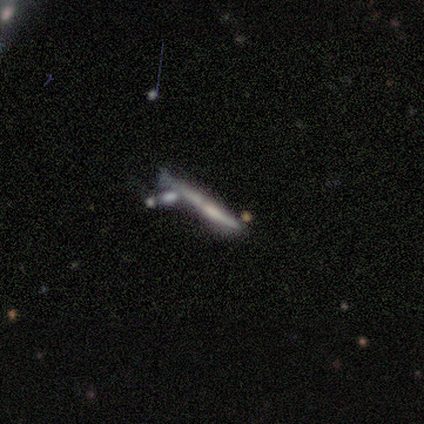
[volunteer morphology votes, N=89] smooth_or_featured: featured or disk (p=0.61) [alt: smooth p=0.31]
disk_edge_on: yes (p=0.93) [alt: no p=0.07]
edge_on_bulge: none (p=0.56) [alt: rounded p=0.34]
merging: none (p=0.46) [alt: minor disturbance p=0.23]